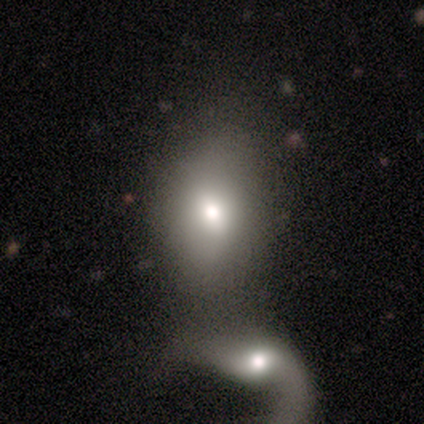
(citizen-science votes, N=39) This appears to be a smooth galaxy with no disk features (62%) that is in between round and cigar-shaped (88%). Merging: merger (67%).